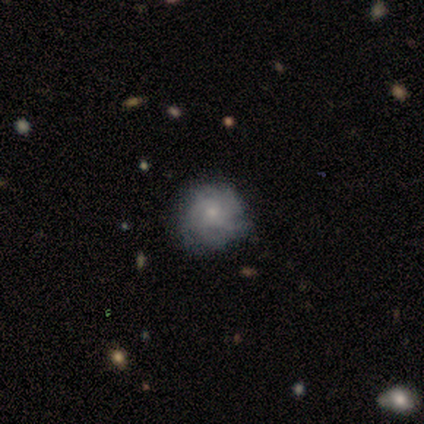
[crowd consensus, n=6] This appears to be a featured or disk galaxy (50%) with no bar (67%), more than 4 (67%) tight (67%) spiral arms (100%) and a small central bulge (100%). Merging: none (100%).